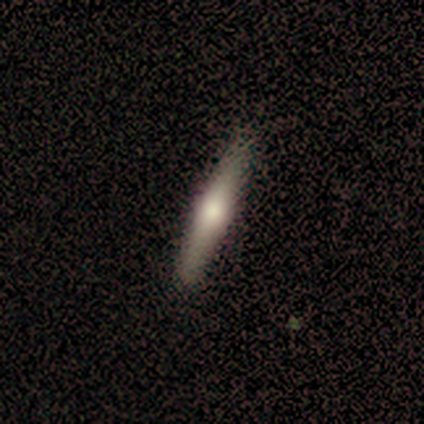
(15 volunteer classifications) Smooth or featured? featured or disk (60%)
Edge-on disk? yes (100%)
Edge-on bulge? rounded (100%)
Merging? none (87%)